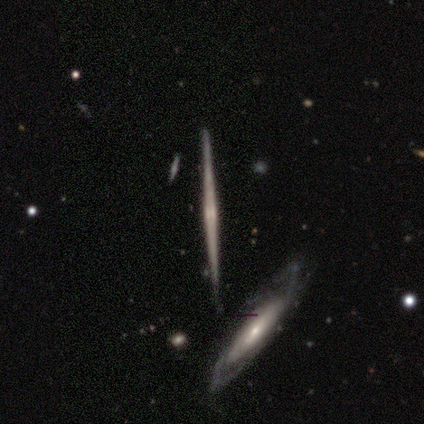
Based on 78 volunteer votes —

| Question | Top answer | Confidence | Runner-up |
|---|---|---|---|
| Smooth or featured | featured or disk | 85% | smooth (10%) |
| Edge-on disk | yes | 100% | — |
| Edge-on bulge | rounded | 42% | none (33%) |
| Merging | none | 61% | merger (11%) |